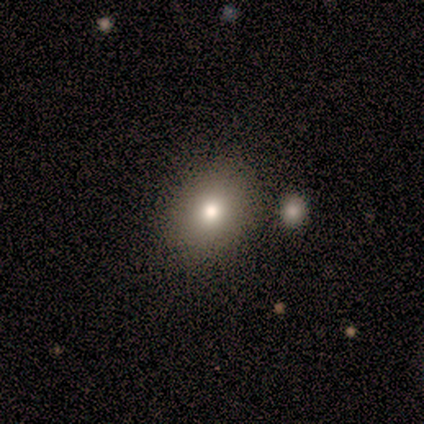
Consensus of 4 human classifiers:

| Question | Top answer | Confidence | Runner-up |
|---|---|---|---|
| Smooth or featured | smooth | 100% | — |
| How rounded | in between | 100% | — |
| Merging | none | 100% | — |